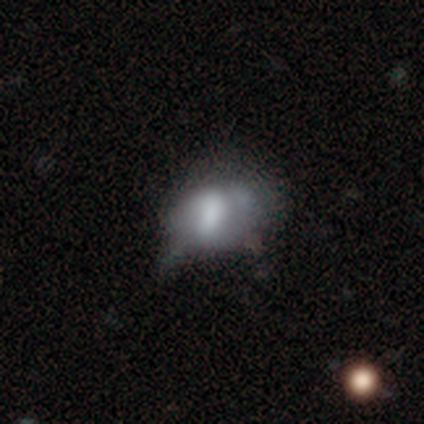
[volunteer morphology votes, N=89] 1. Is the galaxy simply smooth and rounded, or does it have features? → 53% smooth, 34% featured or disk, 13% star or artifact.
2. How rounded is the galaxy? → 64% in between, 34% round, 2% cigar-shaped.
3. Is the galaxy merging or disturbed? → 36% minor disturbance, 31% none, 23% major disturbance, 9% merger.